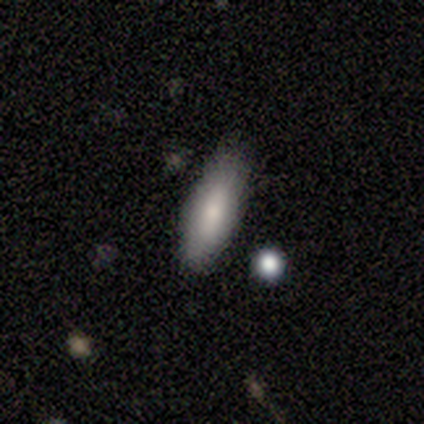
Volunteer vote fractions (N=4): This is likely a smooth galaxy (75%). How rounded: likely in between (67%). Merging: possibly none (50%, tied with minor disturbance).